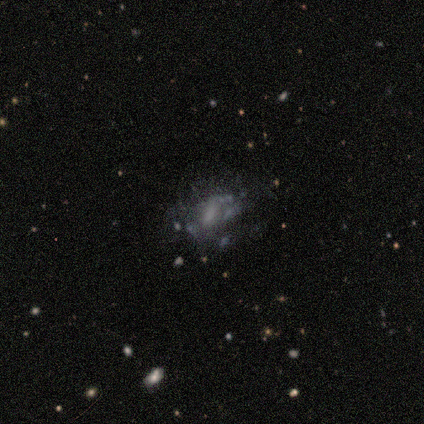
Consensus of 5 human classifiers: A featured or disk galaxy (80%) with no bar (75%), no spiral arms (75%) and a moderate central bulge (100%).

Vote fractions:
- Smooth or featured? featured or disk: 80% / smooth: 20% / star or artifact: 0%
- Edge-on disk? no: 100% / yes: 0%
- Bar? no: 75% / weak: 25% / strong: 0%
- Spiral arms? no: 75% / yes: 25%
- Bulge size? moderate: 100% / dominant: 0% / large: 0% / small: 0% / none: 0%
- Merging? none: 60% / minor disturbance: 20% / major disturbance: 20% / merger: 0%